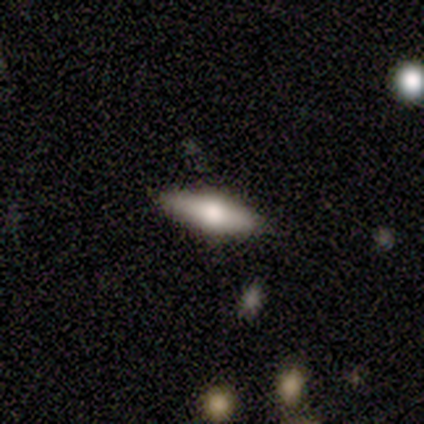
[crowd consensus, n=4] smooth_or_featured: smooth (p=1.00)
how_rounded: in between (p=0.50) [tied with: cigar-shaped p=0.50]
merging: none (p=0.75) [alt: minor disturbance p=0.25]